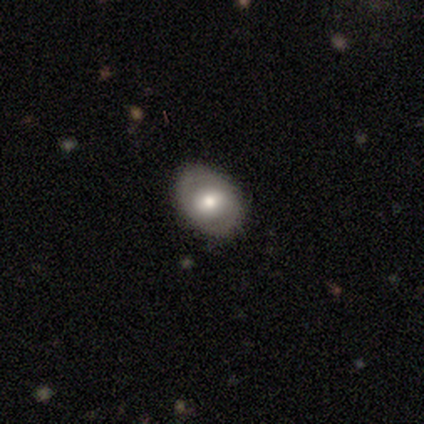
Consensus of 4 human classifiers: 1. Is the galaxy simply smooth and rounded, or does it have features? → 75% smooth, 25% featured or disk, 0% star or artifact.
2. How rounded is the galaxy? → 67% in between, 33% round, 0% cigar-shaped.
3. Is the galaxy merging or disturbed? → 75% none, 25% major disturbance, 0% minor disturbance, 0% merger.